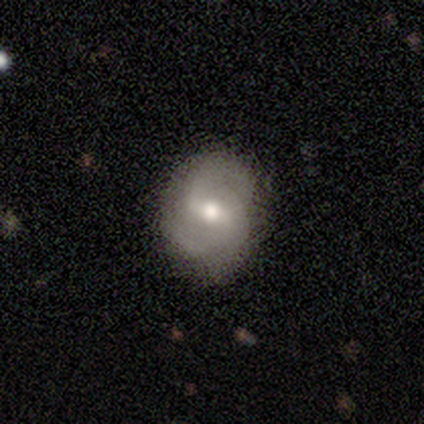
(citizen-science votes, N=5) A smooth galaxy with no disk features (60%) that is in between round and cigar-shaped (67%). Merging: none (75%).